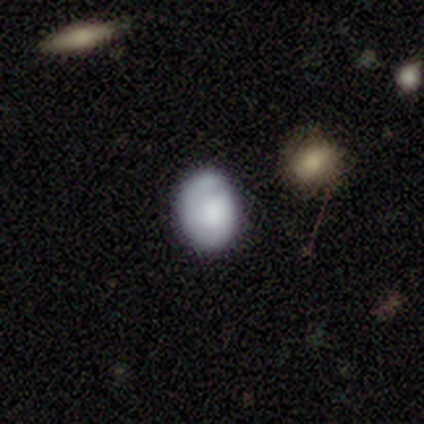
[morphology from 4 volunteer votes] This appears to be a smooth galaxy with no disk features (75%) that is round (67%). Merging: none (50%).